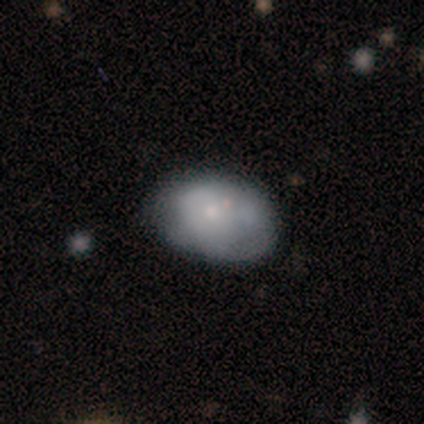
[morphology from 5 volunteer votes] A smooth galaxy with no disk features (80%) that is in between round and cigar-shaped (100%).

Vote fractions:
- Smooth or featured? smooth: 80% / featured or disk: 20% / star or artifact: 0%
- How rounded? in between: 100% / round: 0% / cigar-shaped: 0%
- Merging? none: 100% / minor disturbance: 0% / major disturbance: 0% / merger: 0%